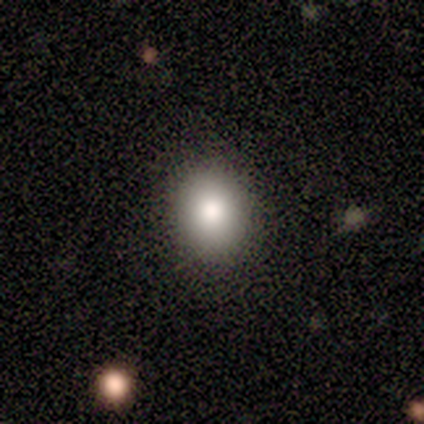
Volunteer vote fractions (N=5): Overall: smooth (80%). How rounded: round (50%, tied with in between). Merging: none (75%).